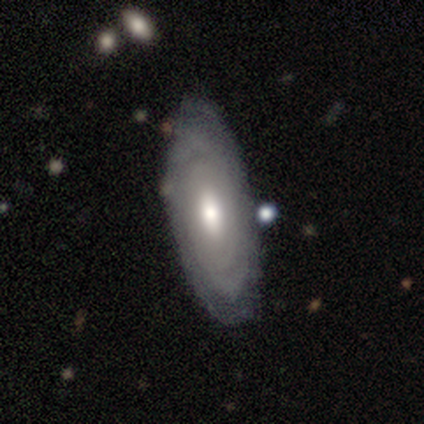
A featured or disk galaxy (60%) with a strong bar (100%), tight (50%, tied with medium) spiral arms (100%) and a moderate central bulge (100%).

Vote fractions:
- Smooth or featured? featured or disk: 60% / smooth: 40% / star or artifact: 0%
- Edge-on disk? no: 67% / yes: 33%
- Bar? strong: 100% / weak: 0% / no: 0%
- Spiral arms? yes: 100% / no: 0%
- Spiral winding? tight: 50% (tied) / medium: 50% (tied) / loose: 0%
- Spiral arm count? can't tell: 100% / 1: 0% / 2: 0% / 3: 0% / 4: 0% / more than 4: 0%
- Bulge size? moderate: 100% / dominant: 0% / large: 0% / small: 0% / none: 0%
- Merging? none: 60% / minor disturbance: 20% / merger: 20% / major disturbance: 0%